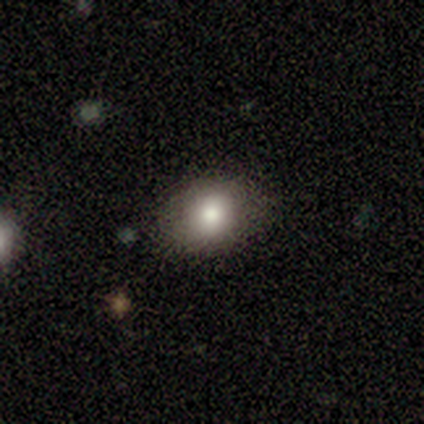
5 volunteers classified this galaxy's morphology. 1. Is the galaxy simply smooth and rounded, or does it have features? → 60% smooth, 20% featured or disk, 20% star or artifact.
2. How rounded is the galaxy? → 67% in between, 33% round, 0% cigar-shaped.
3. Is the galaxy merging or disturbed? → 75% none, 25% minor disturbance, 0% major disturbance, 0% merger.